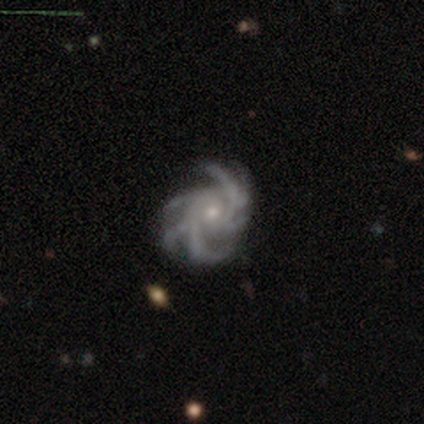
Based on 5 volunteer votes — This appears to be a featured or disk galaxy (100%) with no bar (80%), more than 4 (100%) medium (80%) spiral arms (100%) and a small central bulge (60%). Merging: minor disturbance (60%).